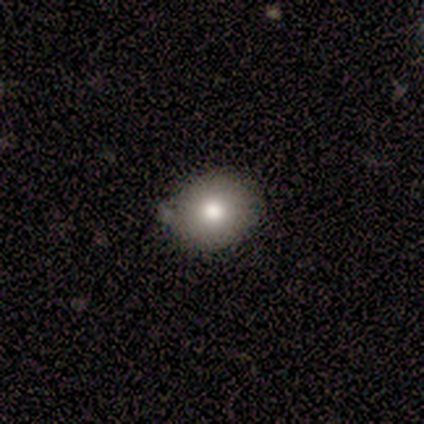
Morphology: type=smooth (75%); roundness=round (67%); merging=none (75%).